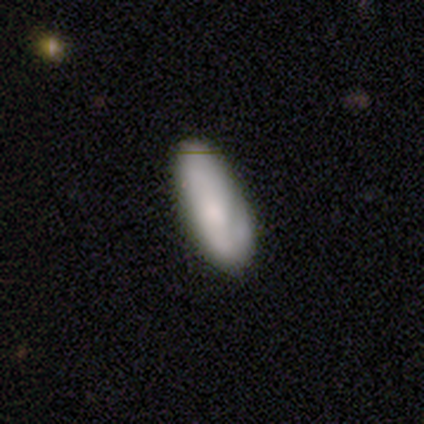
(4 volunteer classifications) Smooth or featured?
  - featured or disk: 75% *
  - smooth: 25%
  - star or artifact: 0%
Edge-on disk?
  - no: 100% *
  - yes: 0%
Bar?
  - weak: 100% *
  - strong: 0%
  - no: 0%
Spiral arms?
  - yes: 67% *
  - no: 33%
Spiral winding?
  - medium: 50% * (tied)
  - loose: 50% * (tied)
  - tight: 0%
Spiral arm count?
  - 3: 50% * (tied)
  - can't tell: 50% * (tied)
  - 1: 0%
  - 2: 0%
  - 4: 0%
  - more than 4: 0%
Bulge size?
  - large: 67% *
  - small: 33%
  - dominant: 0%
  - moderate: 0%
  - none: 0%
Merging?
  - none: 50% * (tied)
  - minor disturbance: 50% * (tied)
  - major disturbance: 0%
  - merger: 0%